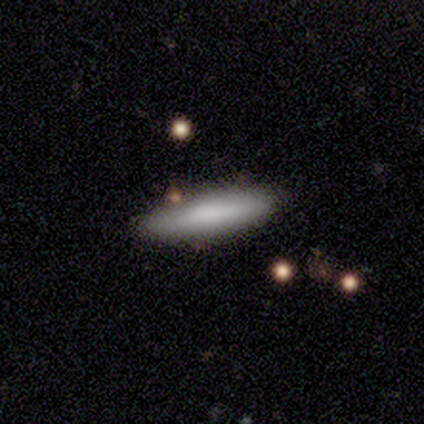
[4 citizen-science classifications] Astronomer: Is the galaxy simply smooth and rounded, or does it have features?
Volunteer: smooth — 75%.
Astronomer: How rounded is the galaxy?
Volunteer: in between — 67%.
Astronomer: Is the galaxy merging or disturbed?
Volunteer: none — 50%, tied with minor disturbance at 50%.